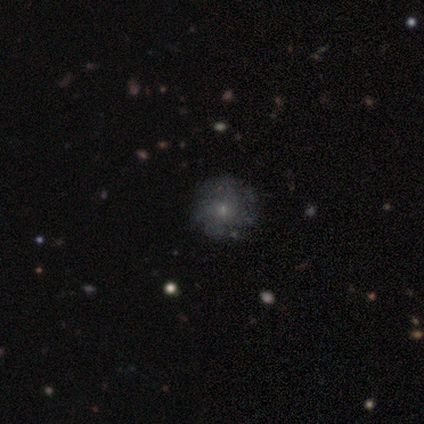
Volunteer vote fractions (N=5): A smooth galaxy with no disk features (40%, tied with featured or disk) that is round (100%). Merging: none (100%).